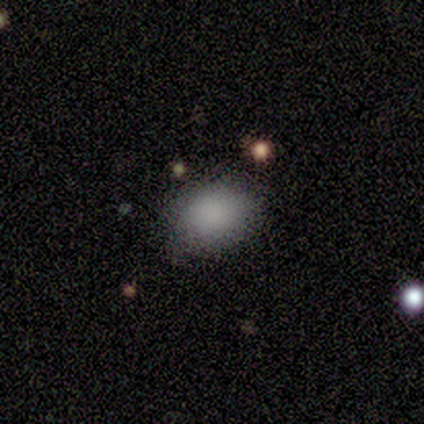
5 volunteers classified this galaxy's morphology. Smooth or featured?
  - smooth: 100% *
  - featured or disk: 0%
  - star or artifact: 0%
How rounded?
  - in between: 60% *
  - round: 40%
  - cigar-shaped: 0%
Merging?
  - none: 80% *
  - minor disturbance: 20%
  - major disturbance: 0%
  - merger: 0%